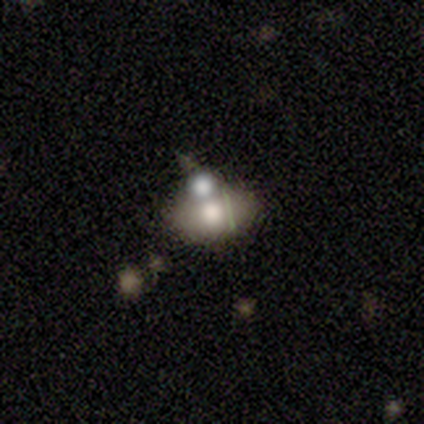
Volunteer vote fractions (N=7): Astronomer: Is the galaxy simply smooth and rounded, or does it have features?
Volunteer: smooth — 57%.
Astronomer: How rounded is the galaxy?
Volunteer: in between — 75%.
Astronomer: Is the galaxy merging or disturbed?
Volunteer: none — 67%.